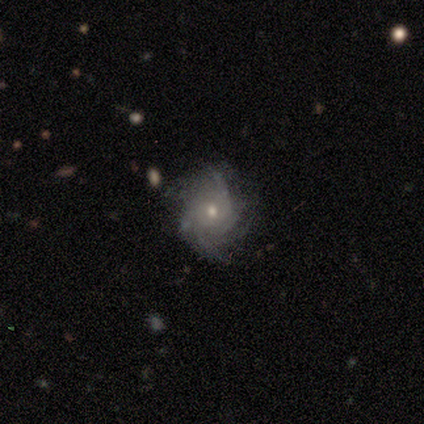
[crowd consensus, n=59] featured or disk 92%, smooth 7%, star or artifact 2%. Down the decision tree: edge-on disk — no (100%); bar — no (85%); spiral arms — yes (98%); spiral arm count — can't tell (32%); spiral winding — tight (58%); bulge size — small (52%); merging — none (64%).